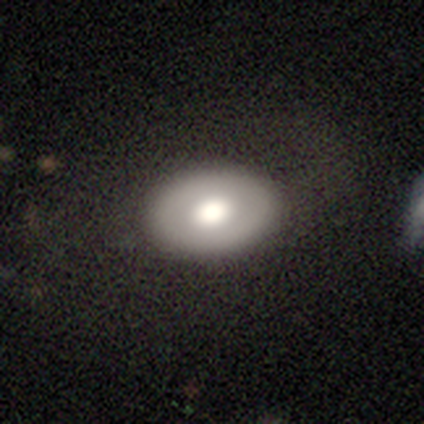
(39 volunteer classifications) This appears to be a smooth galaxy with no disk features (74%) that is in between round and cigar-shaped (76%). Merging: none (77%).